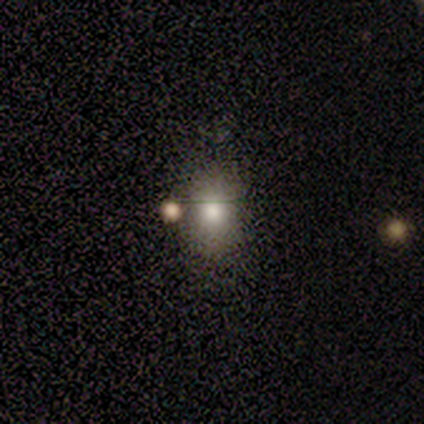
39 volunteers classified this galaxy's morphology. Smooth or featured?
  - smooth: 69% *
  - featured or disk: 18%
  - star or artifact: 13%
How rounded?
  - in between: 56% *
  - round: 44%
  - cigar-shaped: 0%
Merging?
  - none: 71% *
  - minor disturbance: 12%
  - merger: 12%
  - major disturbance: 6%